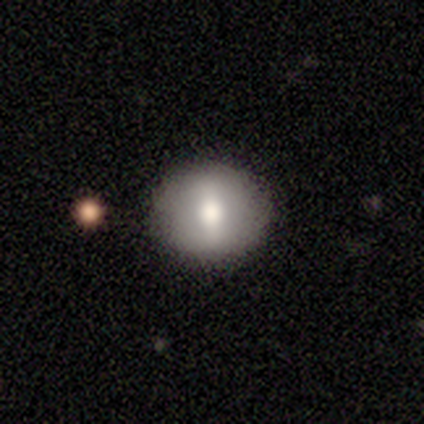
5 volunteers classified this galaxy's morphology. This appears to be a smooth galaxy with no disk features (60%) that is round (67%). Merging: none (80%).